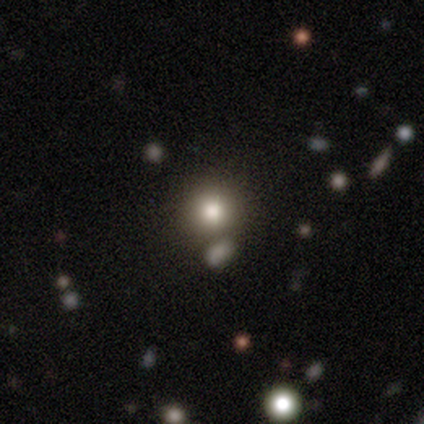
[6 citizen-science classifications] Q: Smooth or featured?
A: smooth (83%); runner-up: star or artifact (17%)
Q: How rounded?
A: round (100%)
Q: Merging?
A: none (40%); tied with: merger (40%)